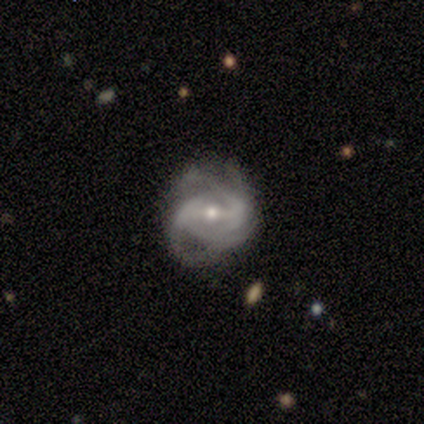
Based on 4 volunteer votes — Morphology: type=featured or disk (100%); edge-on=no (100%); bar=weak (100%); spiral arms=yes (75%); winding=tight (33%, tied with medium and loose); arm count=2 (33%, tied with 3 and can't tell); bulge=moderate (50%, tied with small); merging=minor disturbance (50%).